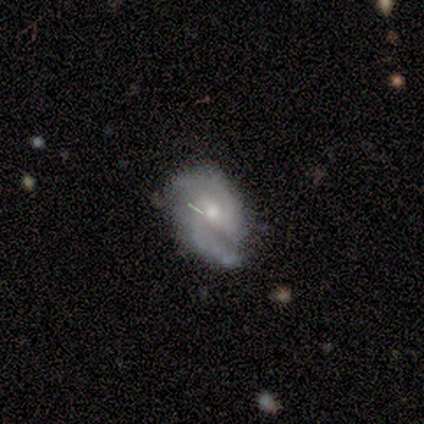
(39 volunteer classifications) Smooth or featured?
  - featured or disk: 82% *
  - smooth: 13%
  - star or artifact: 5%
Edge-on disk?
  - no: 97% *
  - yes: 3%
Bar?
  - weak: 61% *
  - no: 23%
  - strong: 16%
Spiral arms?
  - yes: 97% *
  - no: 3%
Spiral winding?
  - medium: 77% *
  - tight: 17%
  - loose: 7%
Spiral arm count?
  - 2: 97% *
  - 3: 3%
  - 1: 0%
  - 4: 0%
  - more than 4: 0%
  - can't tell: 0%
Bulge size?
  - moderate: 61% *
  - small: 39%
  - dominant: 0%
  - large: 0%
  - none: 0%
Merging?
  - none: 57% *
  - minor disturbance: 32%
  - major disturbance: 8%
  - merger: 3%